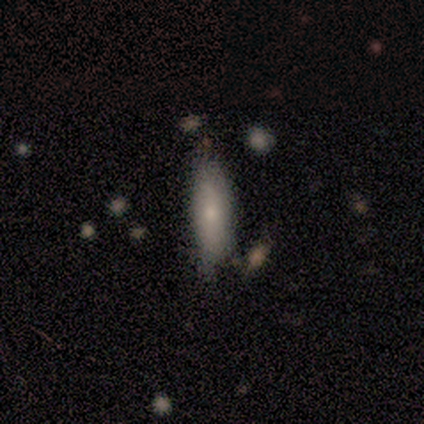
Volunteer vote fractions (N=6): A smooth galaxy with no disk features (83%) that is in between round and cigar-shaped (60%).

Vote fractions:
- Smooth or featured? smooth: 83% / star or artifact: 17% / featured or disk: 0%
- How rounded? in between: 60% / cigar-shaped: 40% / round: 0%
- Merging? none: 60% / minor disturbance: 20% / major disturbance: 20% / merger: 0%